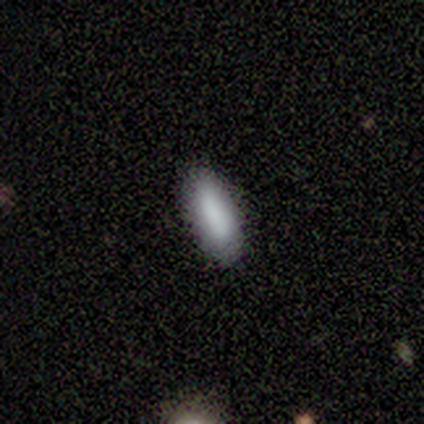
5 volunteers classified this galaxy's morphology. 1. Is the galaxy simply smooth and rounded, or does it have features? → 100% smooth, 0% featured or disk, 0% star or artifact.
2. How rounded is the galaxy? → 80% in between, 20% cigar-shaped, 0% round.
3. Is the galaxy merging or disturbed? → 80% none, 20% major disturbance, 0% minor disturbance, 0% merger.